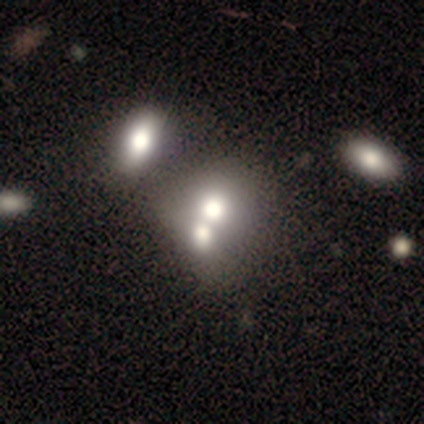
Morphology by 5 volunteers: Q: Smooth or featured?
A: smooth (60%); runner-up: featured or disk (20%)
Q: How rounded?
A: round (67%); runner-up: in between (33%)
Q: Merging?
A: merger (75%); runner-up: minor disturbance (25%)